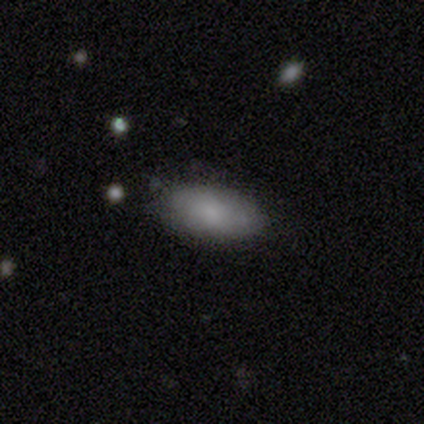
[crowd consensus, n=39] A smooth galaxy with no disk features (77%) that is in between round and cigar-shaped (77%). Merging: none (82%).